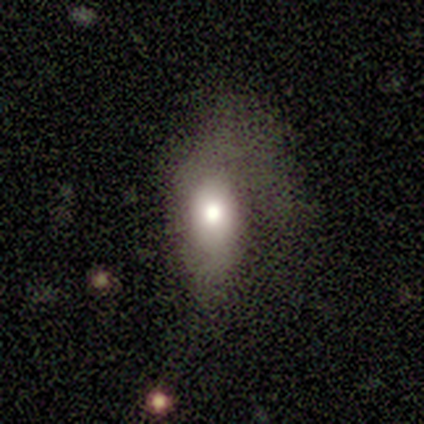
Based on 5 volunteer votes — Smooth or featured: smooth — 100%
How rounded: in between — 80% (cigar-shaped — 20%)
Merging: minor disturbance — 40% (tied with major disturbance — 40%)